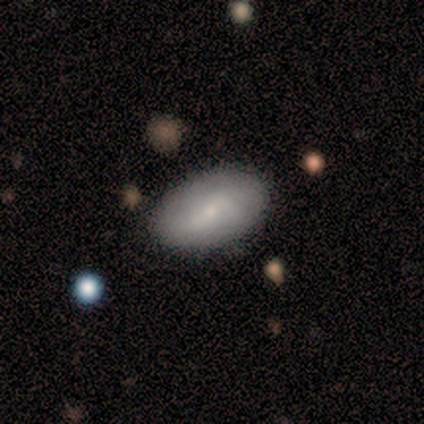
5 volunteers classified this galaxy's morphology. smooth 60%, featured or disk 40%, star or artifact 0%. Down the decision tree: how rounded — in between (100%); merging — none (100%).